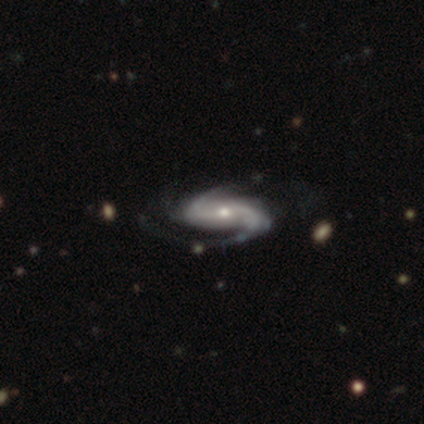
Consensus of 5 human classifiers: Morphology: type=featured or disk (100%); edge-on=no (100%); bar=strong (40%, tied with weak); spiral arms=yes (100%); winding=medium (40%, tied with loose); arm count=2 (60%); bulge=moderate (80%); merging=none (100%).